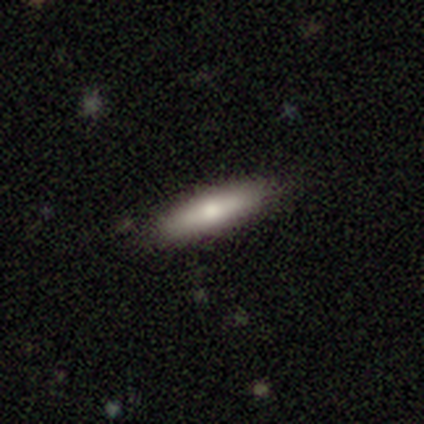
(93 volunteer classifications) Morphology: type=smooth (70%); roundness=cigar-shaped (80%); merging=none (81%).